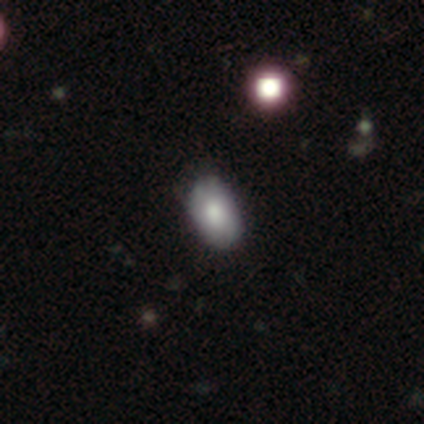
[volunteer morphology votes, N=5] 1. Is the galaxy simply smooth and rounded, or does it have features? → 100% smooth, 0% featured or disk, 0% star or artifact.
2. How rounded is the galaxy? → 100% in between, 0% round, 0% cigar-shaped.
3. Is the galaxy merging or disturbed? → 60% none, 40% minor disturbance, 0% major disturbance, 0% merger.